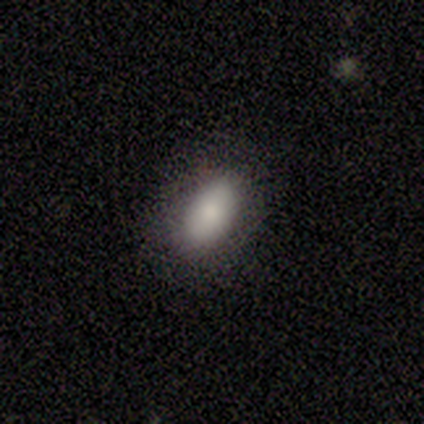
Q: Smooth or featured?
A: smooth (100%)
Q: How rounded?
A: in between (86%); runner-up: round (14%)
Q: Merging?
A: none (71%); runner-up: minor disturbance (29%)